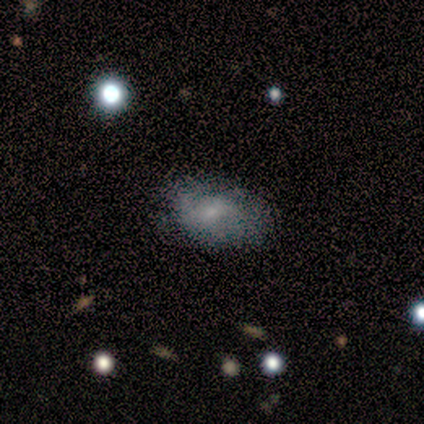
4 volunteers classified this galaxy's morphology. smooth 50%, featured or disk 25%, star or artifact 25%. Down the decision tree: how rounded — round (50%, tied with in between); merging — minor disturbance (67%).